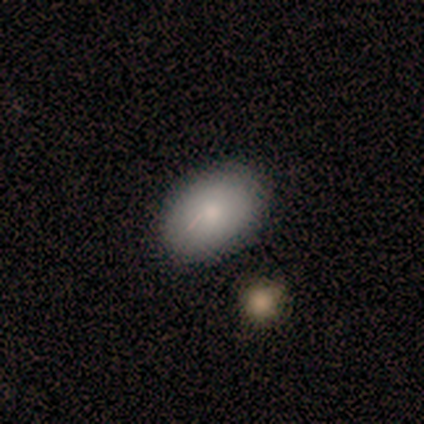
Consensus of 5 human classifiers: Morphology: type=smooth (100%); roundness=in between (100%); merging=none (100%).